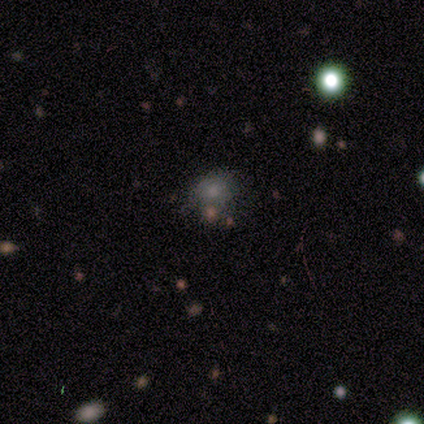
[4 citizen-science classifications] smooth 75%, star or artifact 25%, featured or disk 0%. Down the decision tree: how rounded — round (100%); merging — none (67%).